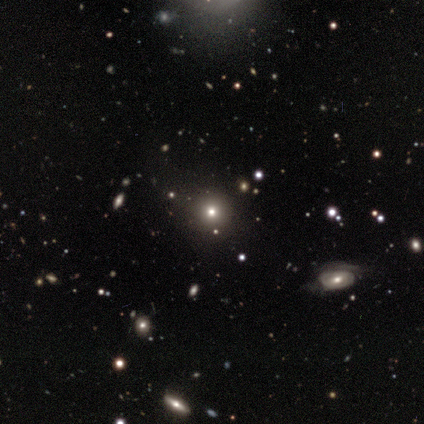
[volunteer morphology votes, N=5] Smooth or featured? smooth (100%)
How rounded? round (100%)
Merging? none (100%)